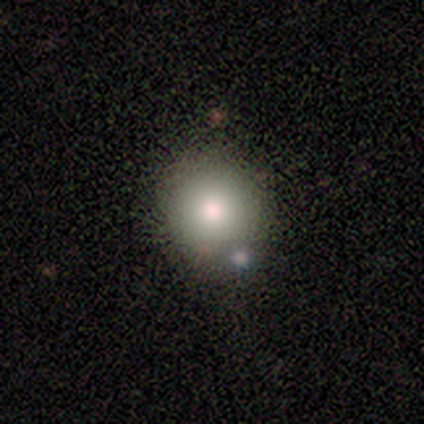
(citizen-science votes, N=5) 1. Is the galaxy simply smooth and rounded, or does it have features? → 80% smooth, 20% featured or disk, 0% star or artifact.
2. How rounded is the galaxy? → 100% round, 0% in between, 0% cigar-shaped.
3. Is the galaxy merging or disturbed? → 40% none (tied), 40% merger (tied), 20% major disturbance, 0% minor disturbance.